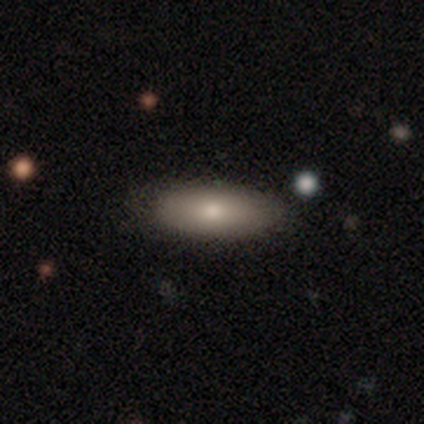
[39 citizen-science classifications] Smooth or featured? smooth (77%)
How rounded? in between (77%)
Merging? none (74%)